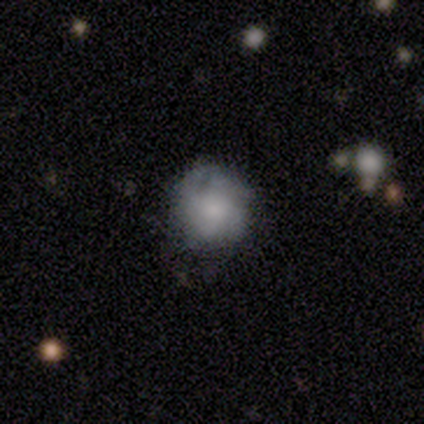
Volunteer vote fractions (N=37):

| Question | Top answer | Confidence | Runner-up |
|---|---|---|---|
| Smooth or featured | smooth | 59% | featured or disk (38%) |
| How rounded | round | 95% | in between (5%) |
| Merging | none | 53% | minor disturbance (33%) |